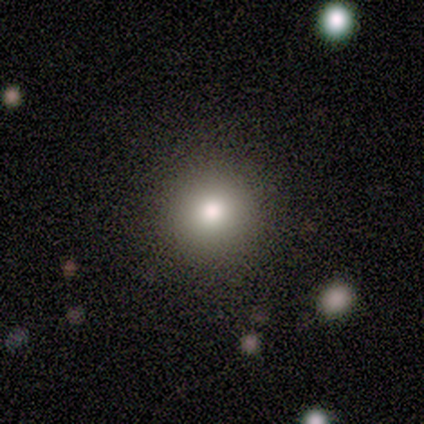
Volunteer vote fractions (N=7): smooth_or_featured: smooth (p=0.71) [alt: featured or disk p=0.14]
how_rounded: round (p=1.00)
merging: none (p=1.00)